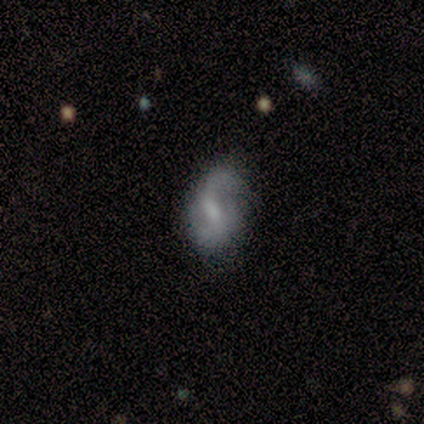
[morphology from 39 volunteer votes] Volunteers were most divided on "merging": none: 48%, minor disturbance: 42%, merger: 6%, major disturbance: 3%. More confident: edge-on disk — no (100%); spiral arms — yes (85%); spiral arm count — 2 (83%); bar — weak (70%); smooth or featured — featured or disk (69%); spiral winding — medium (52%); bulge size — moderate (52%).